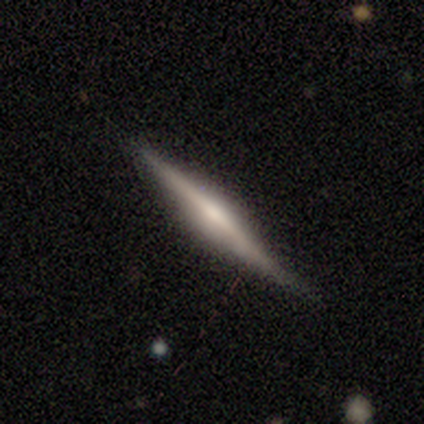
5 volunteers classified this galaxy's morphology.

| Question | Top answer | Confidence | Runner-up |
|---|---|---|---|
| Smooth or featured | featured or disk | 80% | smooth (20%) |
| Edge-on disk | yes | 100% | — |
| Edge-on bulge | boxy | 50% | tied: rounded (50%) |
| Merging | none | 100% | — |